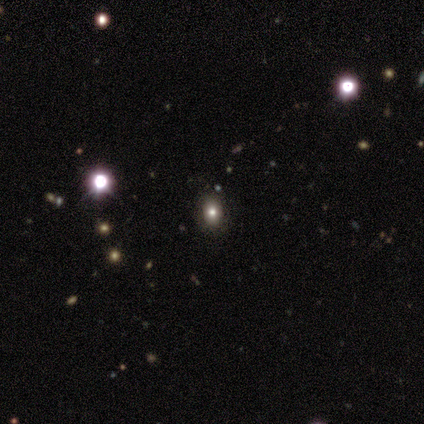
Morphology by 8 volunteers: This appears to be a smooth galaxy with no disk features (50%) that is in between round and cigar-shaped (100%). Merging: none (60%).